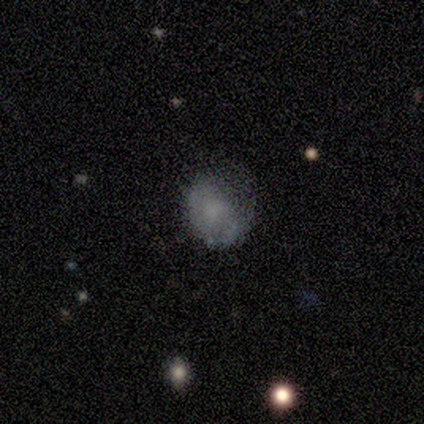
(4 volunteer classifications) A smooth galaxy with no disk features (50%) that is round (100%). Merging: major disturbance (67%).